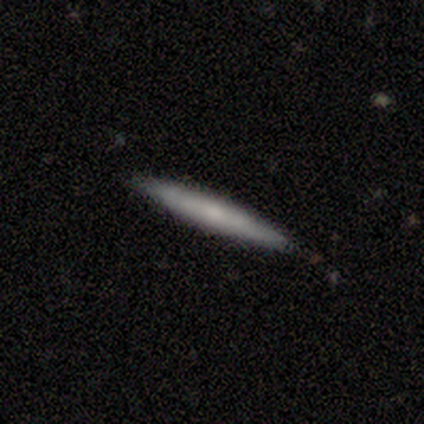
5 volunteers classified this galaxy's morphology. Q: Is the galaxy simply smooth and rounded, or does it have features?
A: featured or disk — 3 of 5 (60%).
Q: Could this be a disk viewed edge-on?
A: yes — 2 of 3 (67%).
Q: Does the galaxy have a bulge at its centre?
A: none — 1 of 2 (50%, tied with rounded).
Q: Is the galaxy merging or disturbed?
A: none — 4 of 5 (80%).